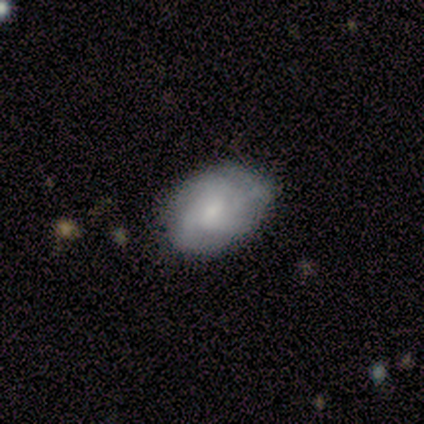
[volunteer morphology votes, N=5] This is clearly a featured or disk galaxy (80%). It is clearly not viewed edge-on (100%). Bar: possibly weak (50%, tied with no). Spiral arm pattern: likely yes (75%). Spiral arm count: marginally 2 (33%, tied with 4 and can't tell). Spiral winding: clearly medium (100%). Central bulge: possibly moderate (50%, tied with small). Merging: clearly none (100%).